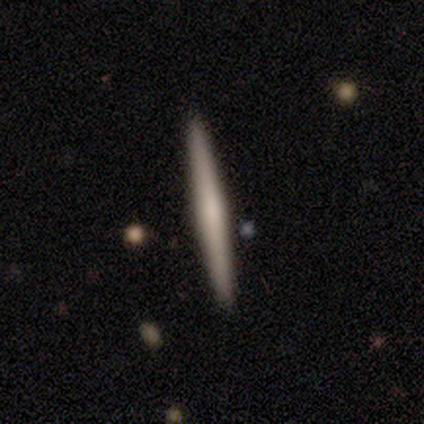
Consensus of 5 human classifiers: Smooth or featured: smooth — 60% (featured or disk — 40%)
How rounded: cigar-shaped — 67% (in between — 33%)
Merging: none — 80% (minor disturbance — 20%)